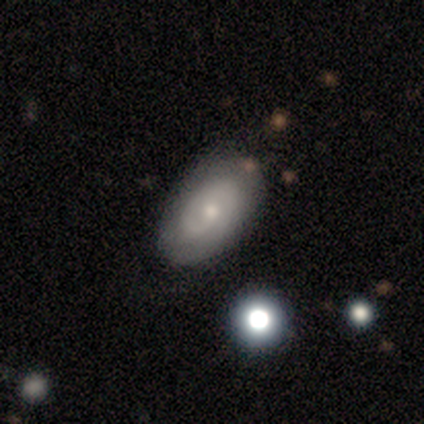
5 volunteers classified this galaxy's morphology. smooth-or-featured: featured or disk: 80% | smooth: 20% | star or artifact: 0%
  disk-edge-on: no: 100% | yes: 0%
    bar: no: 75% | weak: 25% | strong: 0%
    has-spiral-arms: yes: 75% | no: 25%
      spiral-winding: tight: 100% | medium: 0% | loose: 0%
      spiral-arm-count: 1: 67% | 2: 33% | 3: 0% | 4: 0% | more than 4: 0% | can't tell: 0%
    bulge-size: small: 75% | moderate: 25% | dominant: 0% | large: 0% | none: 0%
  merging: none: 80% | minor disturbance: 20% | major disturbance: 0% | merger: 0%